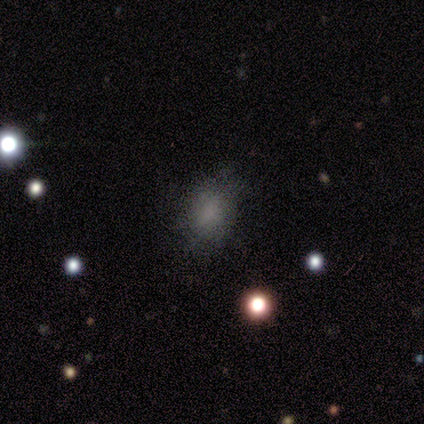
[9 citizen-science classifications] Smooth or featured? smooth (44%)
How rounded? in between (75%)
Merging? none (83%)